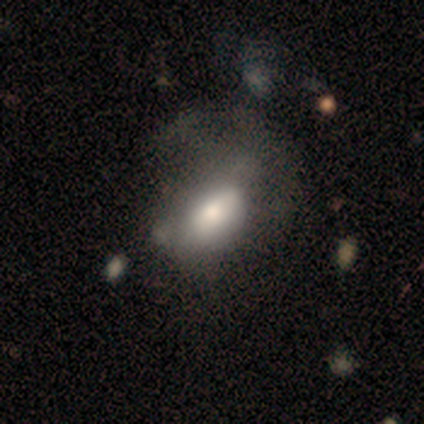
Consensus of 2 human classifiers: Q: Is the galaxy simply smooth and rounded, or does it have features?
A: smooth — 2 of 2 (100%).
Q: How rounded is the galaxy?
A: in between — 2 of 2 (100%).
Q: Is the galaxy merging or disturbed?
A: major disturbance — 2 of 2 (100%).